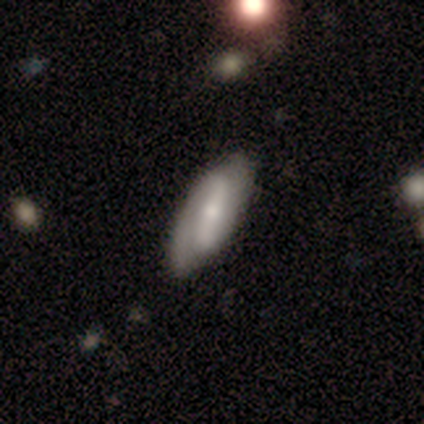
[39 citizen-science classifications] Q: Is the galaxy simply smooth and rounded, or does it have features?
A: featured or disk — 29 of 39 (74%).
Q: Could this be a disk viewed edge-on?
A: no — 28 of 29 (97%).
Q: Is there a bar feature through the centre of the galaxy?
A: strong — 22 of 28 (79%).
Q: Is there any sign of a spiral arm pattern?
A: yes — 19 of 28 (68%).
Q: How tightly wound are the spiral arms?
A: tight — 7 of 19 (37%, tied with loose).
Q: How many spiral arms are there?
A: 2 — 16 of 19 (84%).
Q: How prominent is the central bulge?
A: small — 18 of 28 (64%).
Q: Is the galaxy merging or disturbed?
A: none — 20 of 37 (54%).